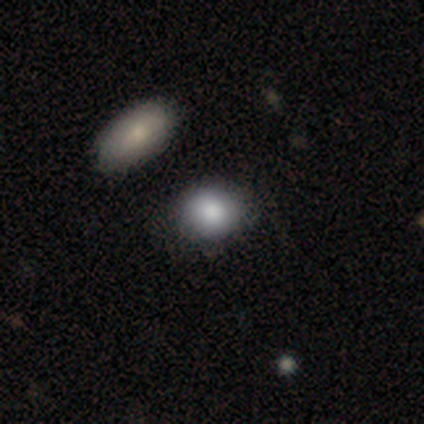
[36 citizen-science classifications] A smooth galaxy with no disk features (78%) that is round (71%).

Vote fractions:
- Smooth or featured? smooth: 78% / featured or disk: 11% / star or artifact: 11%
- How rounded? round: 71% / in between: 29% / cigar-shaped: 0%
- Merging? none: 88% / minor disturbance: 6% / major disturbance: 3% / merger: 3%